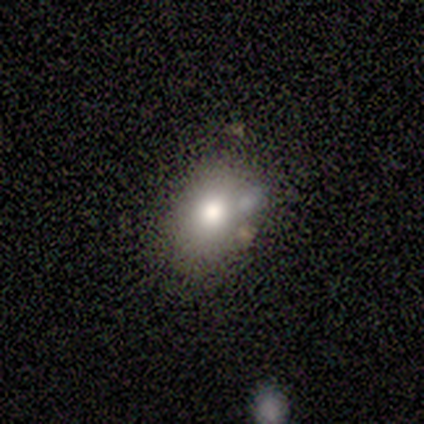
A smooth galaxy with no disk features (62%) that is in between round and cigar-shaped (80%). Merging: none (67%).